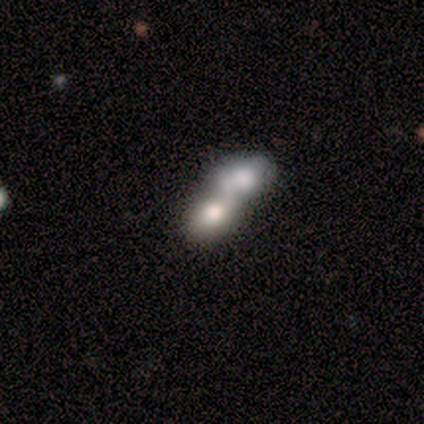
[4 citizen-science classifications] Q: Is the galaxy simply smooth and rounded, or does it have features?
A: smooth — 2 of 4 (50%).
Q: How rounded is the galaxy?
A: round — 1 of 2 (50%, tied with in between).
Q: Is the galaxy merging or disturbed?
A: merger — 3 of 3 (100%).